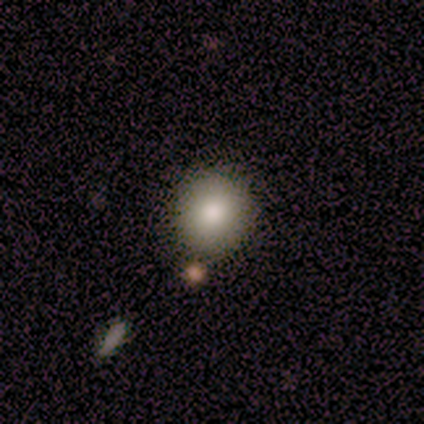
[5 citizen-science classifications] smooth_or_featured: smooth (p=1.00)
how_rounded: round (p=1.00)
merging: none (p=0.60) [alt: minor disturbance p=0.40]